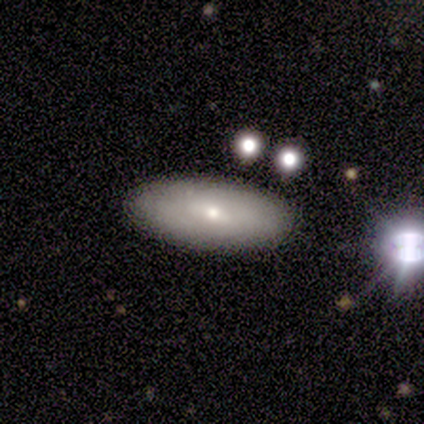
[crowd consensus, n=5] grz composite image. It shows a featured or disk galaxy (60%) with a weak bar (100%), tight (100%) spiral arms (50%, tied with no) and a moderate central bulge (50%, tied with none). Merging: none (100%).